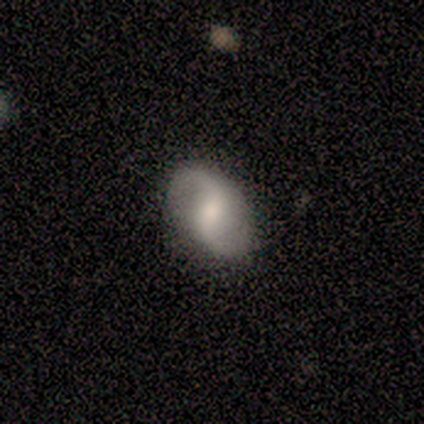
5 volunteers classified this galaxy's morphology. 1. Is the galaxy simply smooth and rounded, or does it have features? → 40% smooth (tied), 40% featured or disk (tied), 20% star or artifact.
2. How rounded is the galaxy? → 100% in between, 0% round, 0% cigar-shaped.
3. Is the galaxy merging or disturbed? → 50% none (tied), 50% minor disturbance (tied), 0% major disturbance, 0% merger.